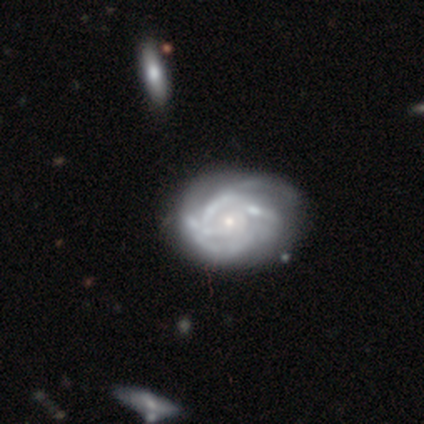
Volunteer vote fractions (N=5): Overall: featured or disk (100%). Edge-on disk: no (60%; yes 40%). Bar: no (100%). Spiral arms: yes (100%). Spiral arm count: 2 (33%, tied with 4 and can't tell). Spiral winding: tight (33%, tied with medium and loose). Bulge size: small (67%; moderate 33%). Merging: none (40%, tied with merger).